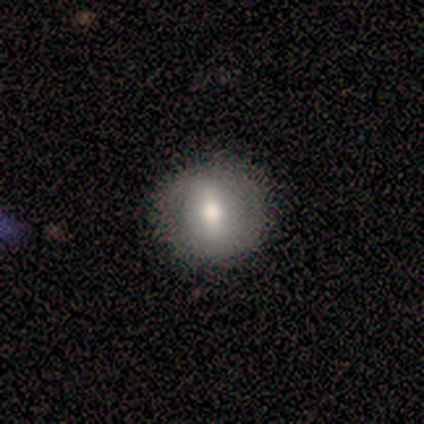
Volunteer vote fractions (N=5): Morphology: type=smooth (40%, tied with featured or disk); roundness=round (100%); merging=none (75%).